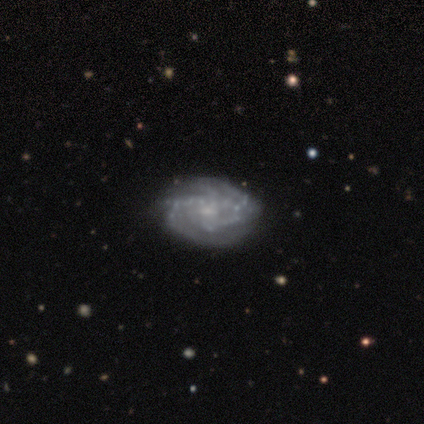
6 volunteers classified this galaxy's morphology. smooth-or-featured: featured or disk: 100% | smooth: 0% | star or artifact: 0%
  disk-edge-on: no: 100% | yes: 0%
    bar: weak: 67% | no: 33% | strong: 0%
    has-spiral-arms: yes: 100% | no: 0%
      spiral-winding: tight: 83% | medium: 17% | loose: 0%
      spiral-arm-count: 2: 50% | can't tell: 33% | 3: 17% | 1: 0% | 4: 0% | more than 4: 0%
    bulge-size: small: 83% | moderate: 17% | dominant: 0% | large: 0% | none: 0%
  merging: none: 100% | minor disturbance: 0% | major disturbance: 0% | merger: 0%